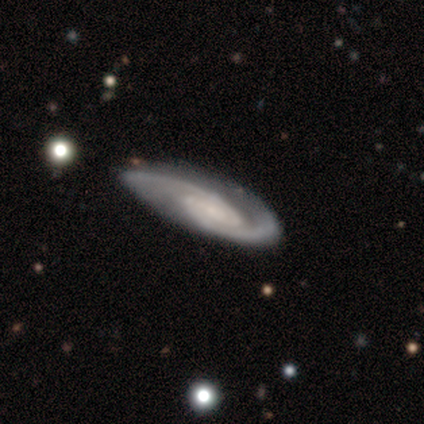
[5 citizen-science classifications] Smooth or featured? featured or disk (100%)
Edge-on disk? no (100%)
Bar? no (80%)
Spiral arms? yes (80%)
Spiral winding? tight (50%, tied with medium)
Spiral arm count? 2 (100%)
Bulge size? dominant (20%, tied with large, moderate, small and none)
Merging? none (80%)